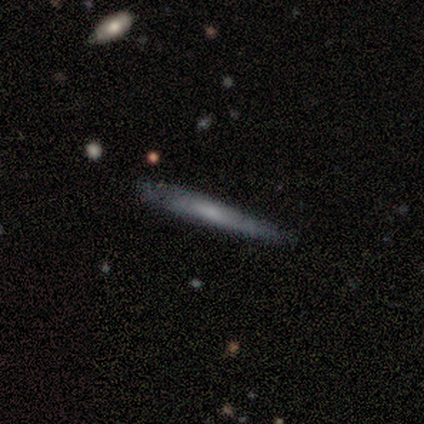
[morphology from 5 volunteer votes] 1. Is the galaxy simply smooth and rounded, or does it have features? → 60% featured or disk, 40% smooth, 0% star or artifact.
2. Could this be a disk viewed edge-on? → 67% yes, 33% no.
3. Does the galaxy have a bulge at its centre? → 100% none, 0% boxy, 0% rounded.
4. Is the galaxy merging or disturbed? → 60% none, 40% minor disturbance, 0% major disturbance, 0% merger.